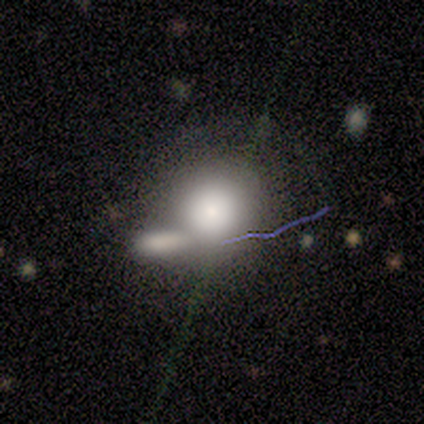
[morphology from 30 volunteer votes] Q: Smooth or featured?
A: smooth (50%); runner-up: featured or disk (37%)
Q: How rounded?
A: round (80%); runner-up: in between (20%)
Q: Merging?
A: merger (58%); runner-up: none (31%)